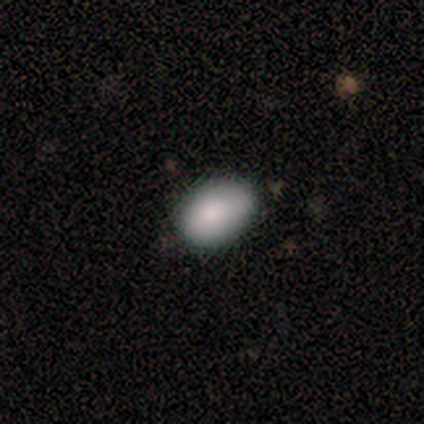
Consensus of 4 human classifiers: Q: Smooth or featured?
A: smooth (75%); runner-up: featured or disk (25%)
Q: How rounded?
A: in between (100%)
Q: Merging?
A: none (75%); runner-up: minor disturbance (25%)